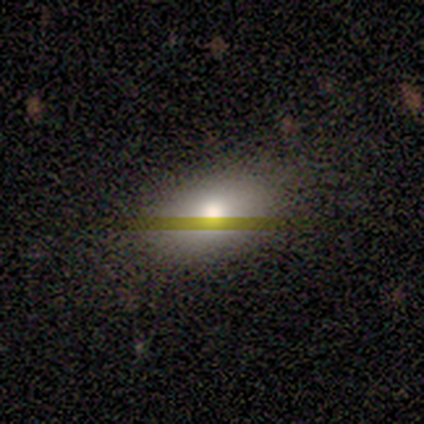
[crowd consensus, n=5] A smooth galaxy with no disk features (60%) that is in between round and cigar-shaped (100%).

Vote fractions:
- Smooth or featured? smooth: 60% / featured or disk: 20% / star or artifact: 20%
- How rounded? in between: 100% / round: 0% / cigar-shaped: 0%
- Merging? none: 100% / minor disturbance: 0% / major disturbance: 0% / merger: 0%